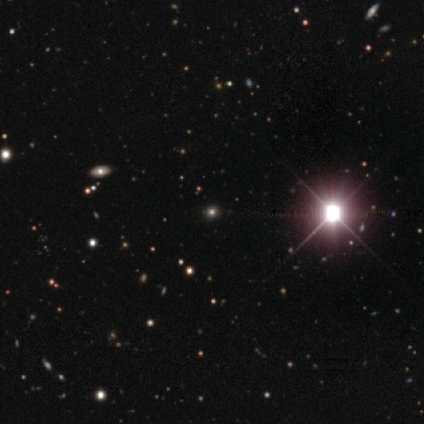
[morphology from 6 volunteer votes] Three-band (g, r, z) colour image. It shows a star or artifact, not a galaxy (83%).